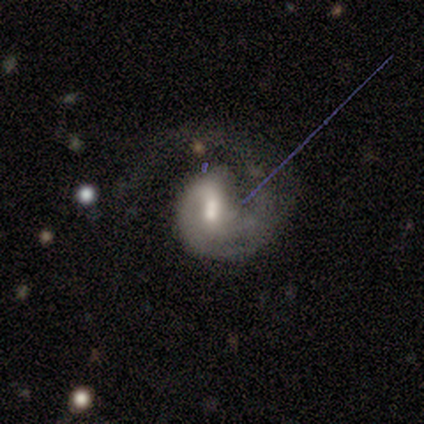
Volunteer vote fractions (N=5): This is clearly a featured or disk galaxy (100%). It is clearly not viewed edge-on (100%). Bar: marginally strong (40%, tied with weak). Spiral arm pattern: clearly yes (100%). Spiral arm count: clearly 1 (80%). Spiral winding: likely loose (60%). Central bulge: clearly moderate (100%). Merging: marginally major disturbance (40%).